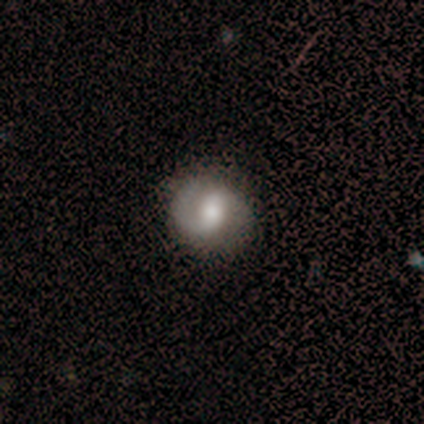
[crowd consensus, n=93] Smooth or featured?
  - featured or disk: 68% *
  - smooth: 27%
  - star or artifact: 5%
Edge-on disk?
  - no: 92% *
  - yes: 8%
Bar?
  - weak: 41% *
  - strong: 29%
  - no: 29%
Spiral arms?
  - yes: 98% *
  - no: 2%
Spiral winding?
  - medium: 44% *
  - loose: 33%
  - tight: 23%
Spiral arm count?
  - 2: 61% *
  - 1: 37%
  - can't tell: 2%
  - 3: 0%
  - 4: 0%
  - more than 4: 0%
Bulge size?
  - moderate: 62% *
  - large: 22%
  - small: 14%
  - dominant: 2%
  - none: 0%
Merging?
  - none: 78% *
  - minor disturbance: 17%
  - major disturbance: 5%
  - merger: 0%